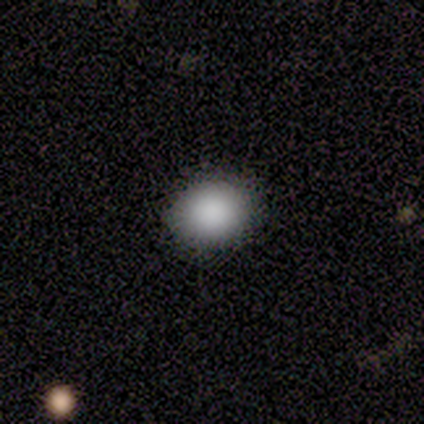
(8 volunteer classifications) This is likely a smooth galaxy (62%). How rounded: likely round (60%). Merging: clearly none (100%).